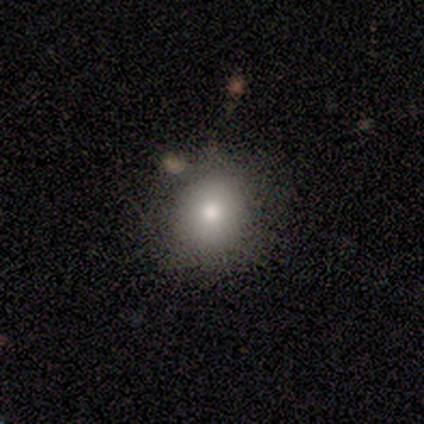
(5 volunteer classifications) Smooth or featured? smooth (100%)
How rounded? round (100%)
Merging? none (100%)